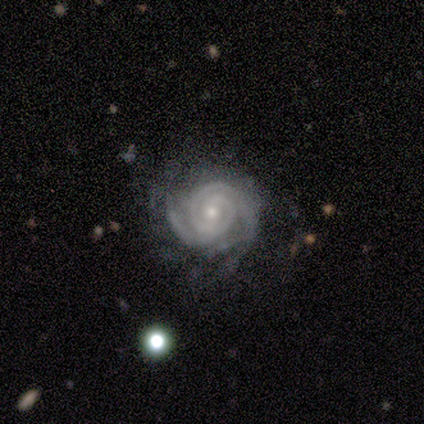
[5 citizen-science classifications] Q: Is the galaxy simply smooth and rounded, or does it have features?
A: featured or disk — 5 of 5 (100%).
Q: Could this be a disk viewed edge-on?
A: no — 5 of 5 (100%).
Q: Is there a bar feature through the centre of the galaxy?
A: no — 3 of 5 (60%).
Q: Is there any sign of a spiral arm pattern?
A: yes — 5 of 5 (100%).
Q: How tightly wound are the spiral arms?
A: tight — 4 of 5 (80%).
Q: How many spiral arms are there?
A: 2 — 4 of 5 (80%).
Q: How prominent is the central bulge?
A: small — 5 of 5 (100%).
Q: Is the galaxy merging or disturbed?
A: none — 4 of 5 (80%).